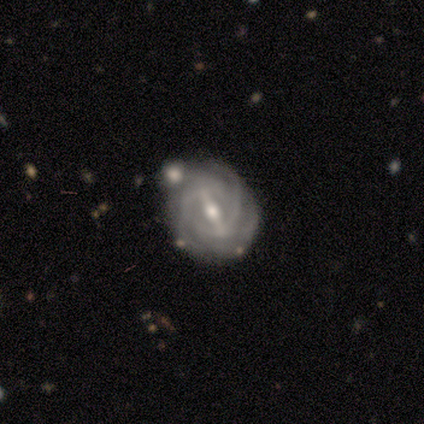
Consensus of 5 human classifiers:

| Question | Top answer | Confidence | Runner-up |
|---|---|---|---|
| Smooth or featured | featured or disk | 100% | — |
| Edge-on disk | no | 100% | — |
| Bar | strong | 60% | weak (40%) |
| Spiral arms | yes | 100% | — |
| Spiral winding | tight | 80% | loose (20%) |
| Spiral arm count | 3 | 40% | tied: 4 (40%) |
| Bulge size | small | 80% | moderate (20%) |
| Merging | none | 80% | minor disturbance (20%) |